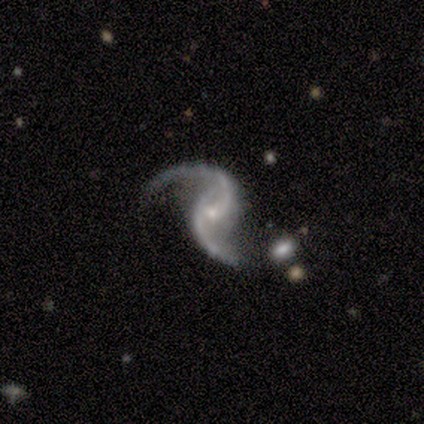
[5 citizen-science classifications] Smooth or featured? featured or disk (100%)
Edge-on disk? no (100%)
Bar? no (60%)
Spiral arms? yes (100%)
Spiral winding? loose (80%)
Spiral arm count? 2 (100%)
Bulge size? small (80%)
Merging? none (60%)